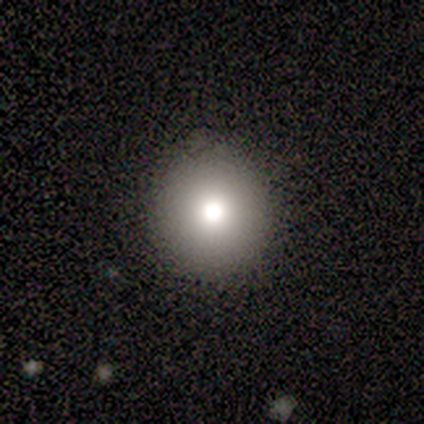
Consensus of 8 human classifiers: smooth-or-featured: smooth: 75% | featured or disk: 12% | star or artifact: 12%
  how-rounded: round: 100% | in between: 0% | cigar-shaped: 0%
  merging: none: 100% | minor disturbance: 0% | major disturbance: 0% | merger: 0%